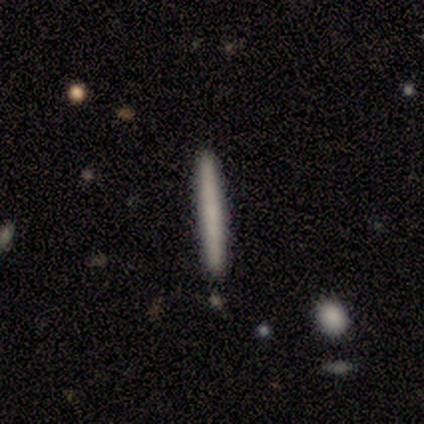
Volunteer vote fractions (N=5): Smooth or featured? smooth (80%)
How rounded? cigar-shaped (100%)
Merging? none (80%)